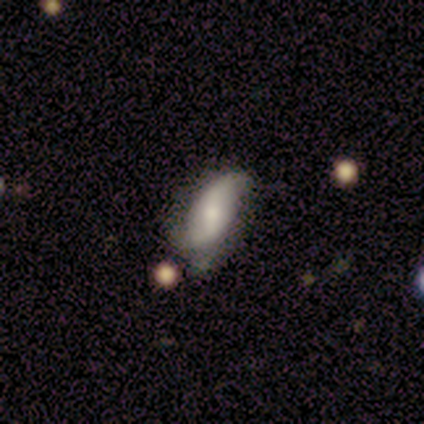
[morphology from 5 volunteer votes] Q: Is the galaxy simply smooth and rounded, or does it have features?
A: featured or disk — 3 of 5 (60%).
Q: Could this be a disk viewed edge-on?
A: no — 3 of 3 (100%).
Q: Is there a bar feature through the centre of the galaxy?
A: strong — 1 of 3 (33%, tied with weak and no).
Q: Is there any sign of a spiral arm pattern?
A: yes — 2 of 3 (67%).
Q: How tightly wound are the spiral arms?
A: loose — 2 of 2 (100%).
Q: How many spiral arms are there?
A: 2 — 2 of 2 (100%).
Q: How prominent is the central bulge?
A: moderate — 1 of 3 (33%, tied with small and none).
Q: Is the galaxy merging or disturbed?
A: none — 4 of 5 (80%).